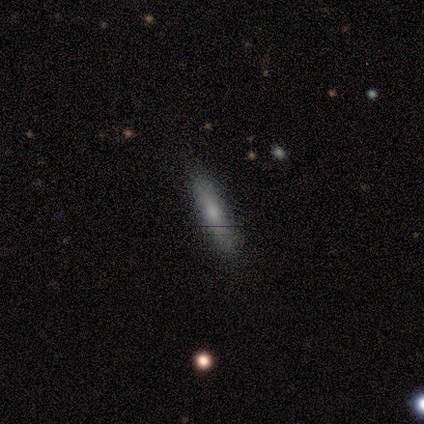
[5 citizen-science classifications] This is likely a smooth galaxy (60%). How rounded: clearly cigar-shaped (100%). Merging: clearly none (100%).